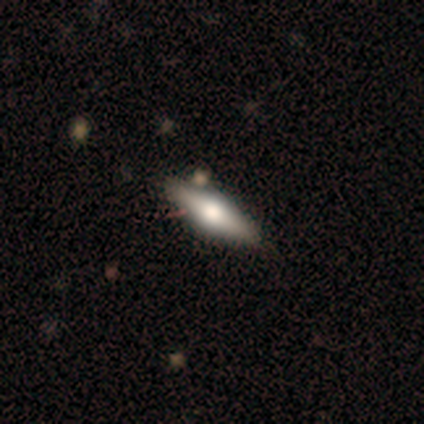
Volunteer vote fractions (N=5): This is likely a smooth galaxy (60%). How rounded: likely cigar-shaped (67%). Merging: clearly none (100%).